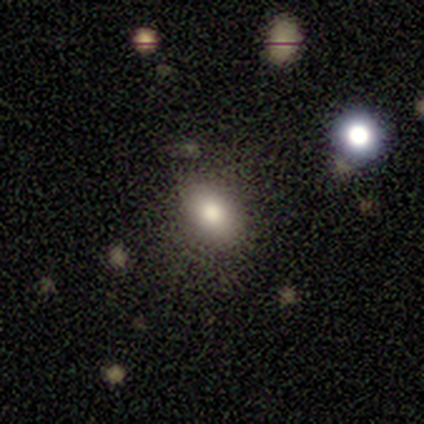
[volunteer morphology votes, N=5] Smooth or featured?
  - smooth: 80% *
  - featured or disk: 20%
  - star or artifact: 0%
How rounded?
  - in between: 75% *
  - cigar-shaped: 25%
  - round: 0%
Merging?
  - none: 80% *
  - minor disturbance: 20%
  - major disturbance: 0%
  - merger: 0%